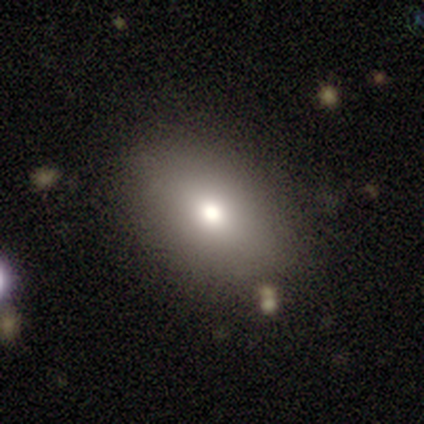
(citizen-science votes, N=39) smooth_or_featured: smooth (p=0.67) [alt: star or artifact p=0.26]
how_rounded: in between (p=0.65) [alt: round p=0.35]
merging: none (p=0.79) [alt: minor disturbance p=0.10]